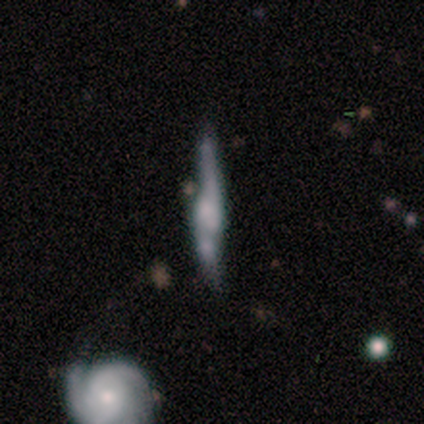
Smooth or featured: smooth — 50% (tied with featured or disk — 50%)
How rounded: cigar-shaped — 100%
Merging: none — 50% (tied with minor disturbance — 50%)